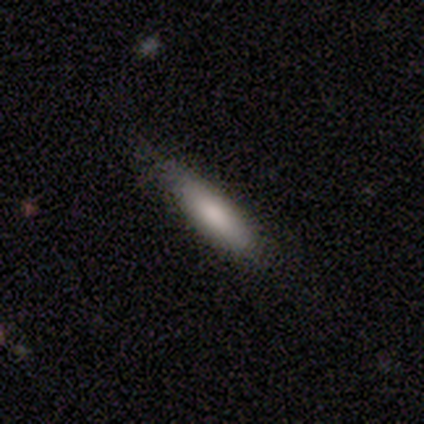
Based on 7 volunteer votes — This is likely a smooth galaxy (71%). How rounded: likely cigar-shaped (60%). Merging: likely none (71%).